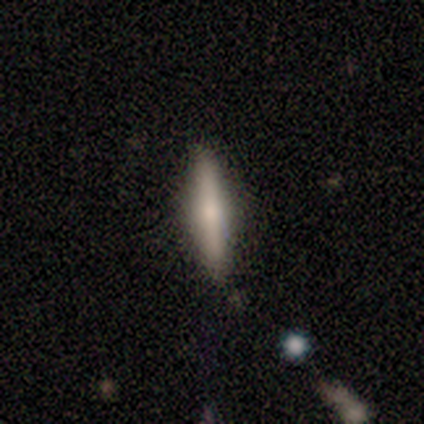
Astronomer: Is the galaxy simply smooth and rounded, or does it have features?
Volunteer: smooth — 100%.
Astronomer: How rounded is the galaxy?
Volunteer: cigar-shaped — 80%.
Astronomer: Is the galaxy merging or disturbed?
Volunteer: none — 100%.